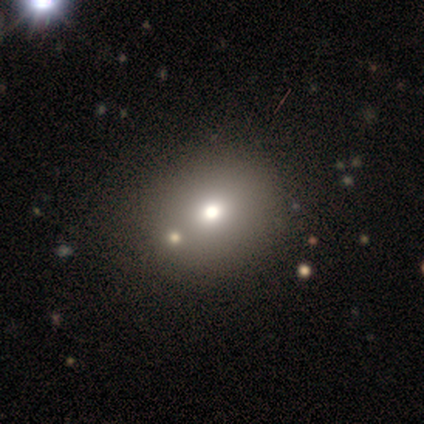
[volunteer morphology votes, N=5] smooth-or-featured: featured or disk: 40% (tied) | star or artifact: 40% (tied) | smooth: 20%
  disk-edge-on: no: 100% | yes: 0%
    bar: no: 100% | strong: 0% | weak: 0%
    has-spiral-arms: no: 100% | yes: 0%
    bulge-size: moderate: 100% | dominant: 0% | large: 0% | small: 0% | none: 0%
  merging: none: 67% | minor disturbance: 33% | major disturbance: 0% | merger: 0%